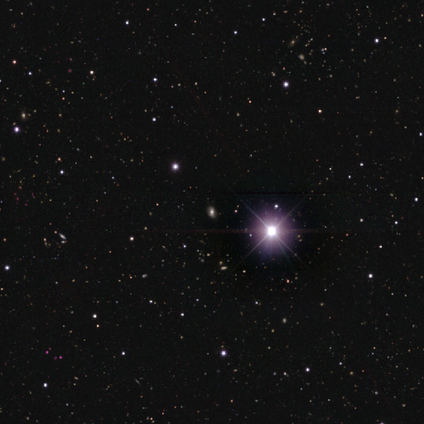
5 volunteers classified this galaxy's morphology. This is clearly a star or artifact rather than a galaxy (100%).